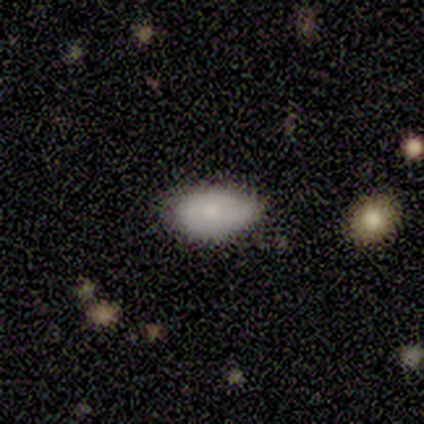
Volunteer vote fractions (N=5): Smooth or featured? smooth (60%)
How rounded? in between (100%)
Merging? minor disturbance (67%)